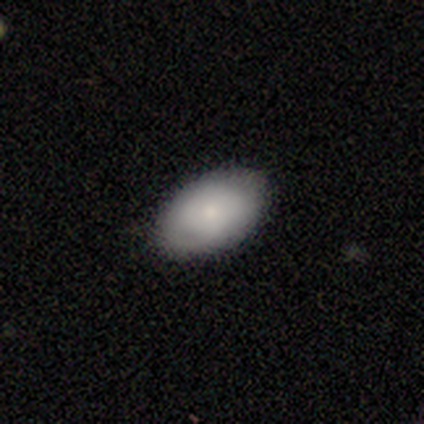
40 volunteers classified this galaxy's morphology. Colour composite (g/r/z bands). It shows a smooth galaxy with no disk features (72%) that is in between round and cigar-shaped (93%). Merging: none (95%).